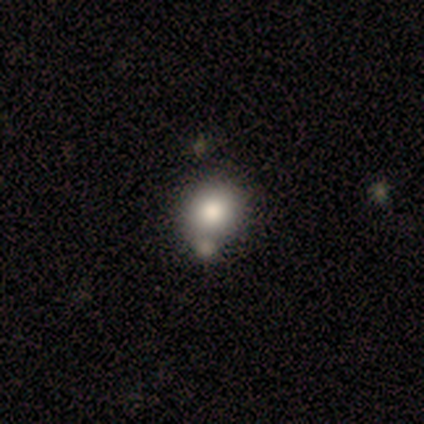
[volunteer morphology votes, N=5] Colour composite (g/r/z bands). It shows a smooth galaxy with no disk features (80%) that is round (50%, tied with in between). Merging: none (50%, tied with merger).